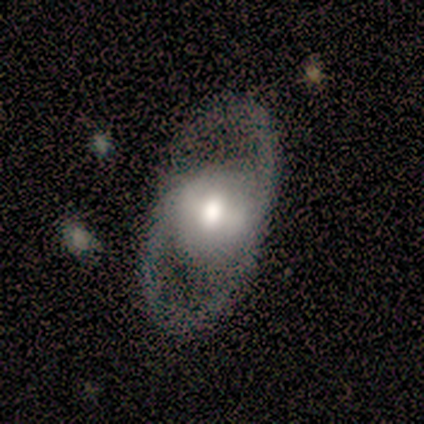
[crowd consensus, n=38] Smooth or featured?
  - featured or disk: 76% *
  - smooth: 18%
  - star or artifact: 5%
Edge-on disk?
  - no: 97% *
  - yes: 3%
Bar?
  - no: 39% *
  - weak: 32%
  - strong: 29%
Spiral arms?
  - yes: 61% *
  - no: 39%
Spiral winding?
  - medium: 71% *
  - loose: 24%
  - tight: 6%
Spiral arm count?
  - 2: 82% *
  - can't tell: 12%
  - 1: 6%
  - 3: 0%
  - 4: 0%
  - more than 4: 0%
Bulge size?
  - moderate: 71% *
  - large: 29%
  - dominant: 0%
  - small: 0%
  - none: 0%
Merging?
  - none: 83% *
  - major disturbance: 11%
  - minor disturbance: 6%
  - merger: 0%